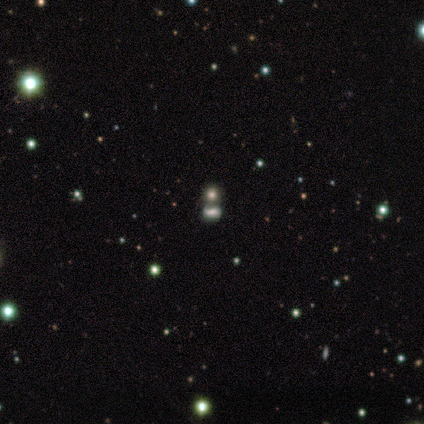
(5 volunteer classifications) A star or artifact, not a galaxy (60%).